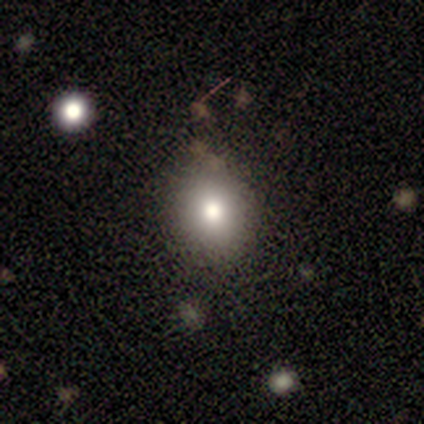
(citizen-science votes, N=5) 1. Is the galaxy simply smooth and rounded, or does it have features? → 80% smooth, 20% star or artifact, 0% featured or disk.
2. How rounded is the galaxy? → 75% round, 25% in between, 0% cigar-shaped.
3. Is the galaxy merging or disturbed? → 100% none, 0% minor disturbance, 0% major disturbance, 0% merger.